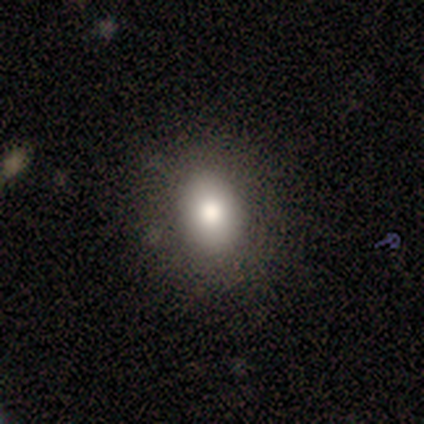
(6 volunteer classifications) Smooth or featured? smooth (83%)
How rounded? in between (100%)
Merging? none (100%)